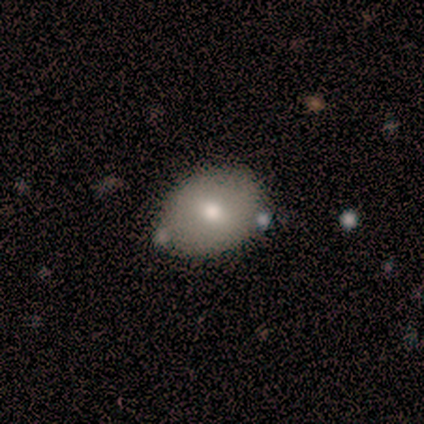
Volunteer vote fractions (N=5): A smooth galaxy with no disk features (80%) that is in between round and cigar-shaped (100%). Merging: none (80%).